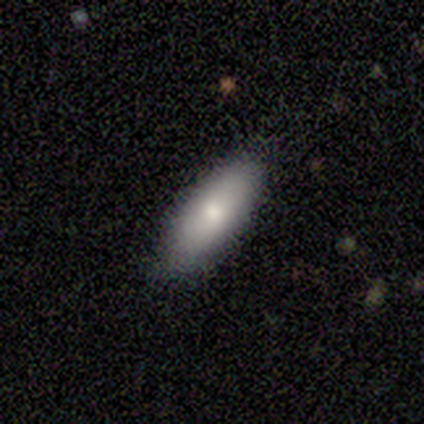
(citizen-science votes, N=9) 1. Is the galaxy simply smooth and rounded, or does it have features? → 89% smooth, 11% featured or disk, 0% star or artifact.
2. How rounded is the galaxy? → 62% cigar-shaped, 38% in between, 0% round.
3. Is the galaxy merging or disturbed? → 78% none, 22% minor disturbance, 0% major disturbance, 0% merger.